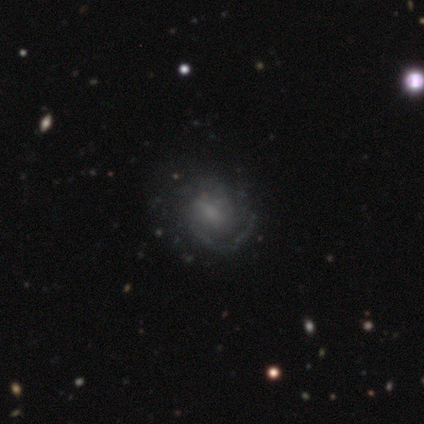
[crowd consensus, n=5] featured or disk 80%, star or artifact 20%, smooth 0%. Down the decision tree: edge-on disk — no (100%); bar — weak (50%, tied with no); spiral arms — yes (100%); spiral arm count — can't tell (50%); spiral winding — tight (75%); bulge size — none (50%); merging — major disturbance (50%).